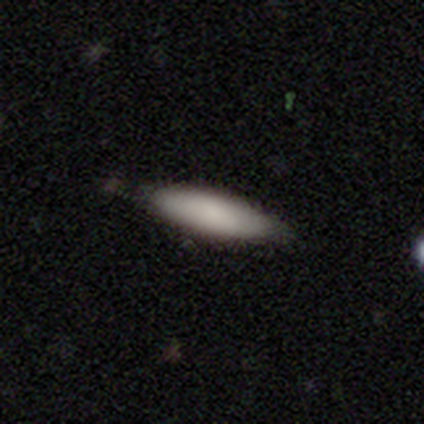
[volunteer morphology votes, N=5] smooth_or_featured: smooth (p=0.60) [alt: featured or disk p=0.20]
how_rounded: in between (p=0.67) [alt: cigar-shaped p=0.33]
merging: none (p=0.75) [alt: minor disturbance p=0.25]